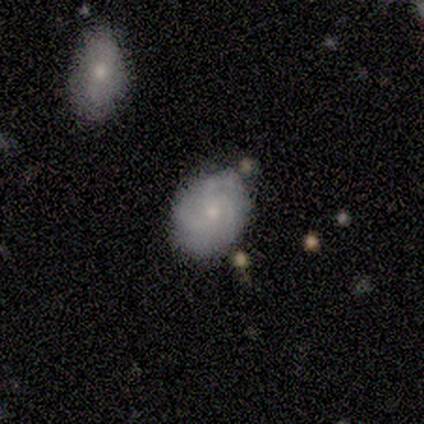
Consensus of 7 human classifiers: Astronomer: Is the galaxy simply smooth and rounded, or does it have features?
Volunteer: smooth — 57% (runner-up: featured or disk, 43%).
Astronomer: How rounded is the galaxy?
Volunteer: round — 50%, tied with in between at 50%.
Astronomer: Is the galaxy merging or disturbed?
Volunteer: none — 86%.